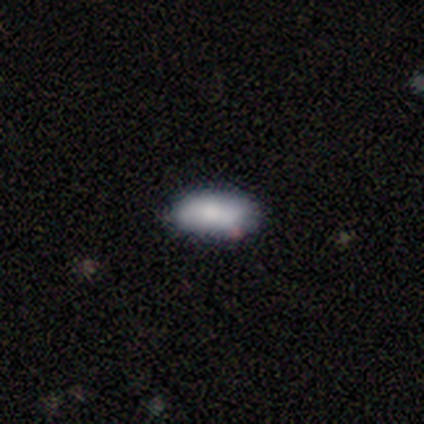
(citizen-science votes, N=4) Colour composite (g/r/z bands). It shows a smooth galaxy with no disk features (100%) that is in between round and cigar-shaped (75%). Merging: none (100%).